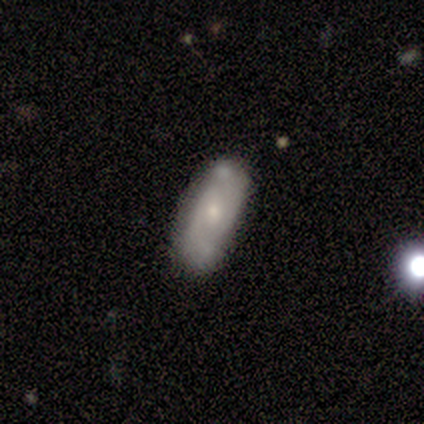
This is likely a smooth galaxy (75%). How rounded: marginally round (33%, tied with in between and cigar-shaped). Merging: possibly none (50%).